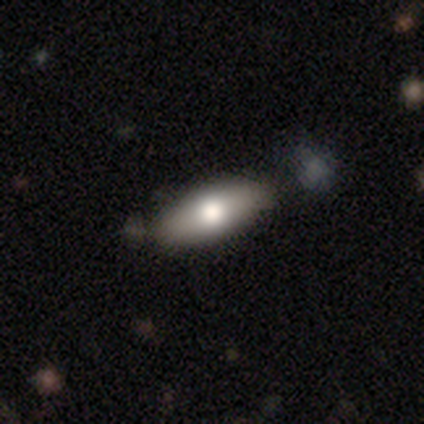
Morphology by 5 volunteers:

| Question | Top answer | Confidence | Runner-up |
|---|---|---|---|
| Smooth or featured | featured or disk | 60% | smooth (40%) |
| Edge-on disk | yes | 67% | no (33%) |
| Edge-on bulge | rounded | 100% | — |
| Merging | none | 80% | merger (20%) |